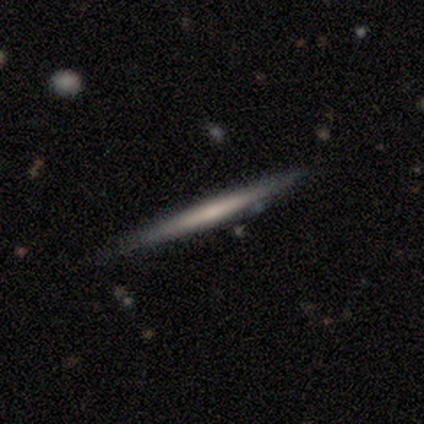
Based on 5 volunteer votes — This is marginally a smooth galaxy (40%, tied with featured or disk). How rounded: clearly cigar-shaped (100%). Merging: possibly none (50%).